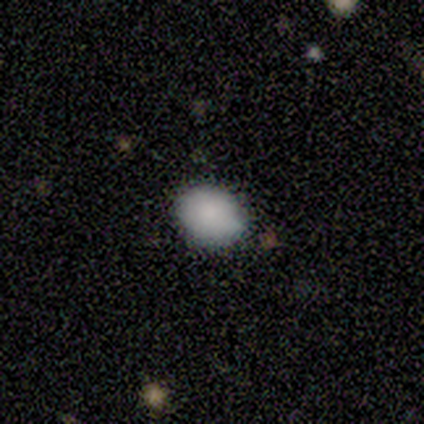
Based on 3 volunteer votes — smooth-or-featured: smooth: 100% | featured or disk: 0% | star or artifact: 0%
  how-rounded: in between: 67% | round: 33% | cigar-shaped: 0%
  merging: none: 67% | minor disturbance: 33% | major disturbance: 0% | merger: 0%